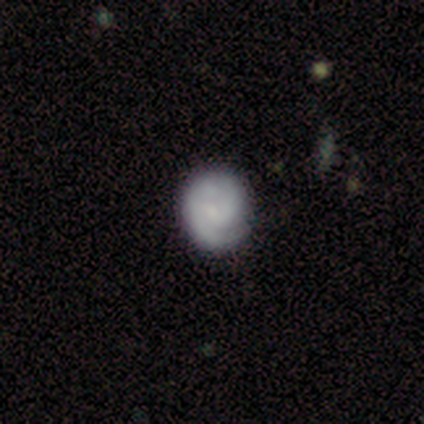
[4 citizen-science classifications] Q: Smooth or featured?
A: smooth (75%); runner-up: featured or disk (25%)
Q: How rounded?
A: round (100%)
Q: Merging?
A: none (50%); runner-up: minor disturbance (25%)